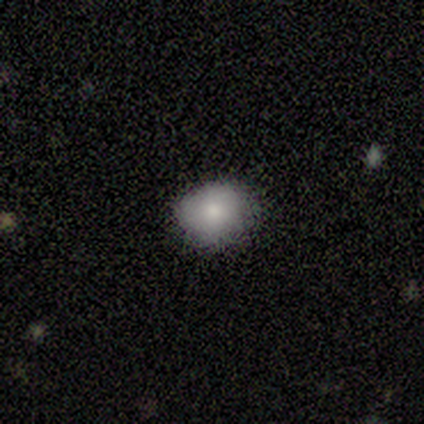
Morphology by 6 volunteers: Smooth or featured?
  - smooth: 67% *
  - featured or disk: 17%
  - star or artifact: 17%
How rounded?
  - in between: 75% *
  - round: 25%
  - cigar-shaped: 0%
Merging?
  - none: 60% *
  - minor disturbance: 40%
  - major disturbance: 0%
  - merger: 0%